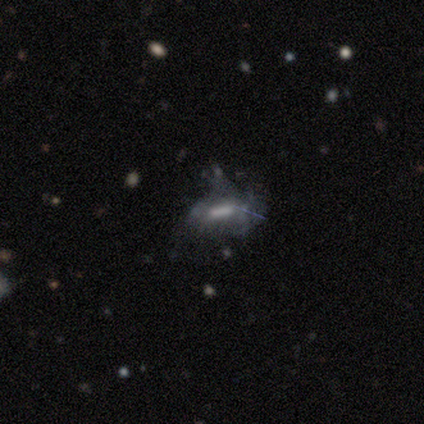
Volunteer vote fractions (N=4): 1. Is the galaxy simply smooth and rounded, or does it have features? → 50% featured or disk, 25% smooth, 25% star or artifact.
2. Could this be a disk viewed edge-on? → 100% yes, 0% no.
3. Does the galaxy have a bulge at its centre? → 50% boxy (tied), 50% rounded (tied), 0% none.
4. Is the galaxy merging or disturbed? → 33% none (tied), 33% minor disturbance (tied), 33% major disturbance (tied), 0% merger.